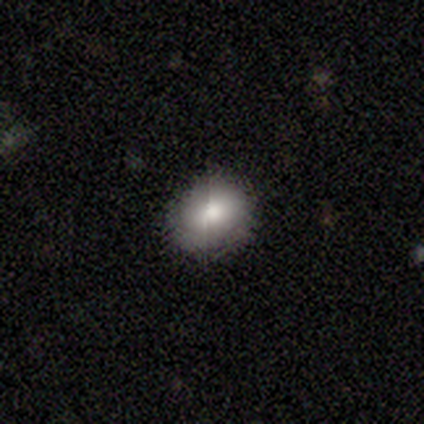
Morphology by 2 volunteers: Smooth or featured? smooth (100%)
How rounded? round (50%, tied with in between)
Merging? none (100%)